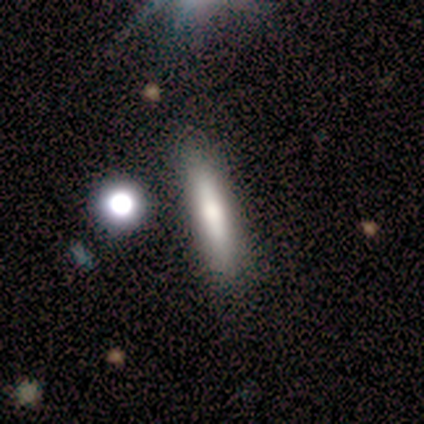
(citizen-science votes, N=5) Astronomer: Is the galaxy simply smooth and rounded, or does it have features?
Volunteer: featured or disk — 80%.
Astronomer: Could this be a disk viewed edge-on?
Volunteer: yes — 100%.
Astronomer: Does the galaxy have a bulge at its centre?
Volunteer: rounded — 75%.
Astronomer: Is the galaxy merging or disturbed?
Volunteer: none — 100%.